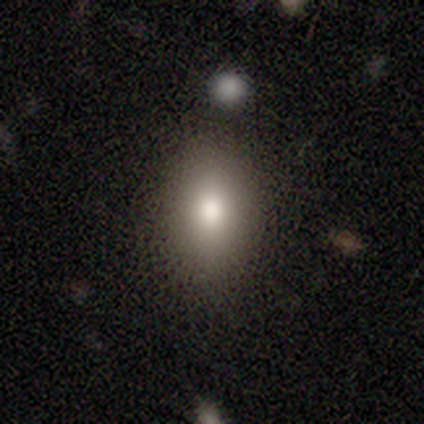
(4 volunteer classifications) A smooth galaxy with no disk features (75%) that is in between round and cigar-shaped (100%).

Vote fractions:
- Smooth or featured? smooth: 75% / star or artifact: 25% / featured or disk: 0%
- How rounded? in between: 100% / round: 0% / cigar-shaped: 0%
- Merging? none: 100% / minor disturbance: 0% / major disturbance: 0% / merger: 0%